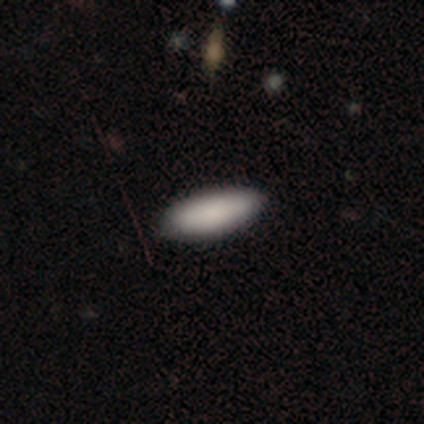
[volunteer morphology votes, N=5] Smooth or featured: smooth — 100%
How rounded: in between — 80% (cigar-shaped — 20%)
Merging: none — 100%